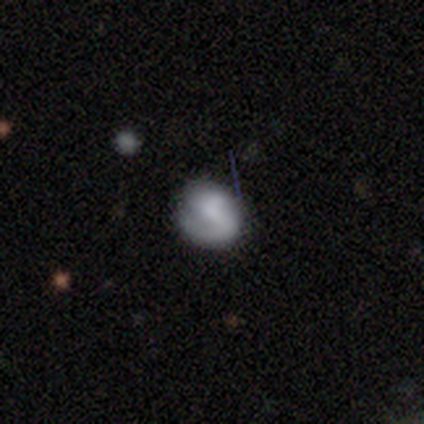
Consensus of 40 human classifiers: A featured or disk galaxy (62%) with a weak bar (48%), 1 (47%) medium (47%) spiral arms (83%) and no central bulge (43%). Merging: none (64%).